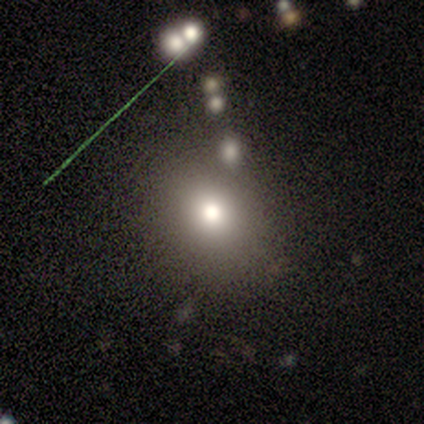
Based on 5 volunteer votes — Smooth or featured? 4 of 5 (80%) said smooth. How rounded? 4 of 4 (100%) said round. Merging? 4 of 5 (80%) said none.